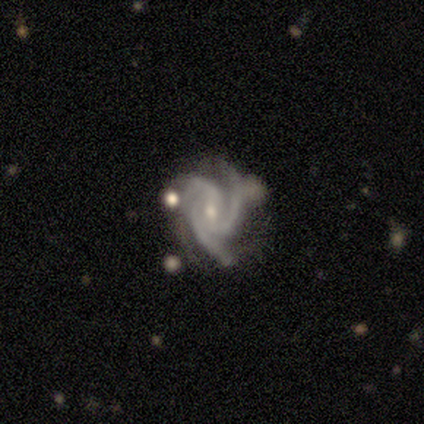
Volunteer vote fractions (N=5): A featured or disk galaxy (100%) with no bar (60%), 3 (80%) medium (60%) spiral arms (100%) and a moderate central bulge (60%).

Vote fractions:
- Smooth or featured? featured or disk: 100% / smooth: 0% / star or artifact: 0%
- Edge-on disk? no: 100% / yes: 0%
- Bar? no: 60% / strong: 20% / weak: 20%
- Spiral arms? yes: 100% / no: 0%
- Spiral winding? medium: 60% / tight: 20% / loose: 20%
- Spiral arm count? 3: 80% / 2: 20% / 1: 0% / 4: 0% / more than 4: 0% / can't tell: 0%
- Bulge size? moderate: 60% / small: 40% / dominant: 0% / large: 0% / none: 0%
- Merging? none: 40% (tied) / minor disturbance: 40% (tied) / major disturbance: 20% / merger: 0%